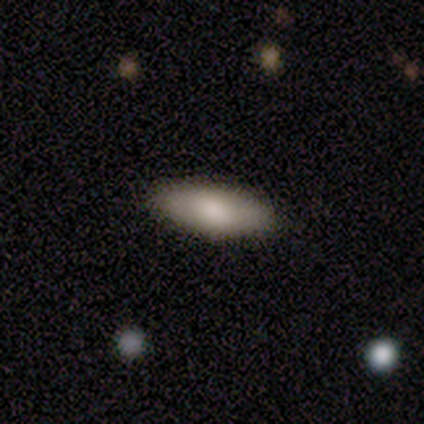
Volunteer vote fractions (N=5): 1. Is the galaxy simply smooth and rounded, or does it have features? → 80% smooth, 20% featured or disk, 0% star or artifact.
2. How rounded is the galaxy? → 75% in between, 25% cigar-shaped, 0% round.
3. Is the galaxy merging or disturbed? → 60% none, 20% major disturbance, 20% merger, 0% minor disturbance.